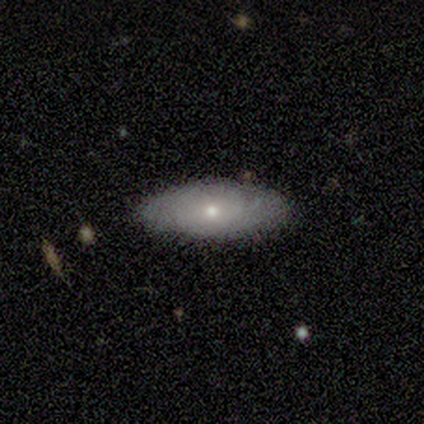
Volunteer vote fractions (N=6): smooth-or-featured: smooth: 50% | featured or disk: 33% | star or artifact: 17%
  how-rounded: in between: 100% | round: 0% | cigar-shaped: 0%
  merging: none: 80% | minor disturbance: 20% | major disturbance: 0% | merger: 0%